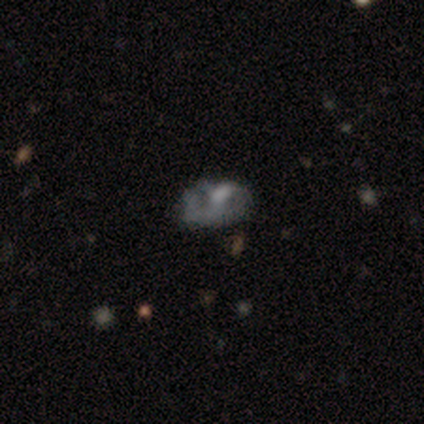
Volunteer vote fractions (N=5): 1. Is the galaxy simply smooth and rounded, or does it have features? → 80% featured or disk, 20% smooth, 0% star or artifact.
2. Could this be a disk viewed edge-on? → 100% no, 0% yes.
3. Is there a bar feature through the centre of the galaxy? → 100% no, 0% strong, 0% weak.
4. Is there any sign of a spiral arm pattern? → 50% yes (tied), 50% no (tied).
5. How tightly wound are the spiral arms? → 100% tight, 0% medium, 0% loose.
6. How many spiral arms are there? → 100% 2, 0% 1, 0% 3, 0% 4, 0% more than 4, 0% can't tell.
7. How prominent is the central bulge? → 50% none, 25% moderate, 25% small, 0% dominant, 0% large.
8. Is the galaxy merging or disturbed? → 60% none, 20% minor disturbance, 20% major disturbance, 0% merger.